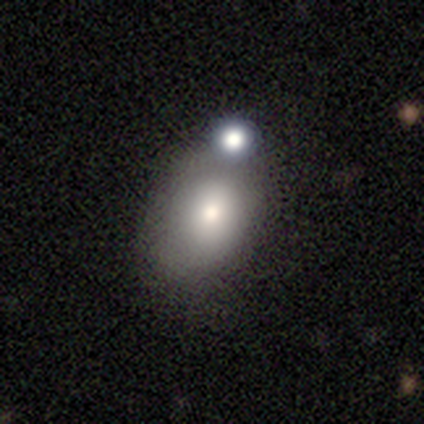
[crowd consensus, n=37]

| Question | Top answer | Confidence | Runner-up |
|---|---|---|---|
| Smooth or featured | smooth | 70% | featured or disk (16%) |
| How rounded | in between | 81% | round (19%) |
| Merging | none | 59% | merger (22%) |